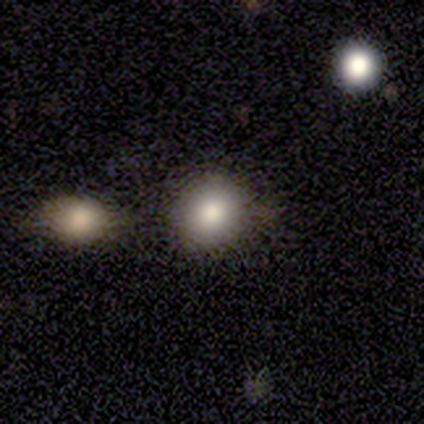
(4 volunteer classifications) This appears to be a smooth galaxy with no disk features (100%) that is round (100%). Merging: none (75%).